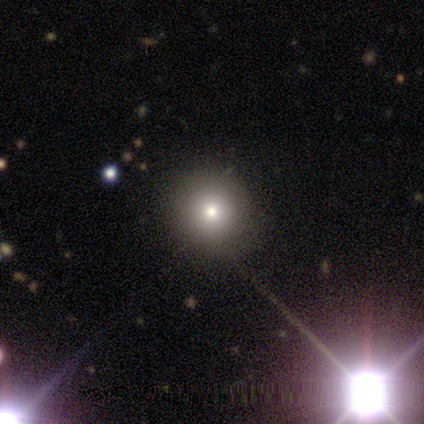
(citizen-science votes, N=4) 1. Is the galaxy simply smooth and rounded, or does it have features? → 75% star or artifact, 25% smooth, 0% featured or disk.